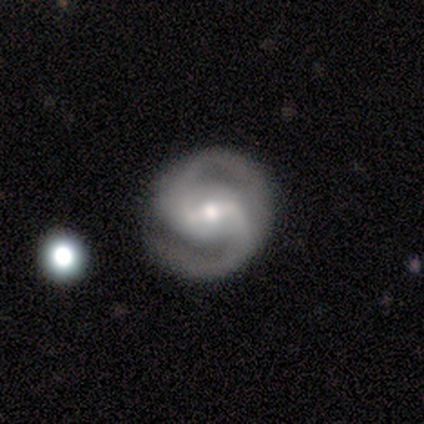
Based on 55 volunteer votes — This appears to be a featured or disk galaxy (87%) with a strong bar (48%), 2 (98%) tight (51%) spiral arms (98%) and a moderate central bulge (60%). Merging: none (80%).